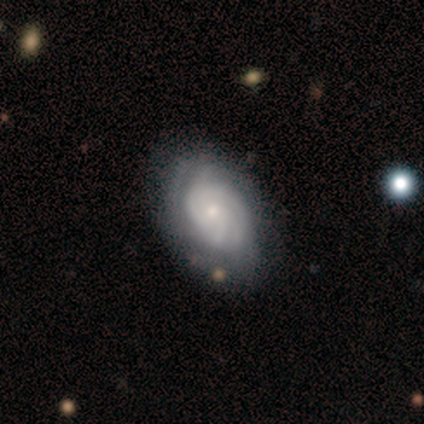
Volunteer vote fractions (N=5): Morphology: type=featured or disk (100%); edge-on=no (100%); bar=no (100%); spiral arms=yes (80%); winding=tight (100%); arm count=4 (50%, tied with can't tell); bulge=small (80%); merging=none (80%).